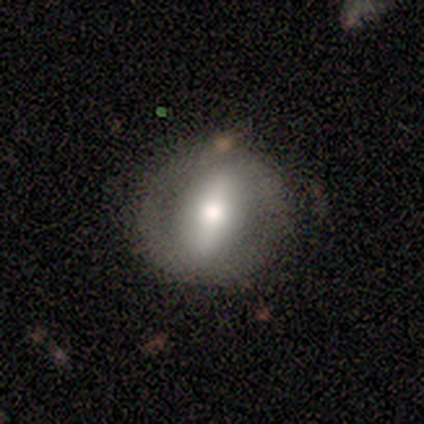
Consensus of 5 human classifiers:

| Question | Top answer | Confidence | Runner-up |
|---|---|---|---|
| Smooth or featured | featured or disk | 80% | smooth (20%) |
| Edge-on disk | no | 100% | — |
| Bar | strong | 100% | — |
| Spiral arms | no | 75% | yes (25%) |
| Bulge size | moderate | 50% | large (25%) |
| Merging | none | 80% | minor disturbance (20%) |